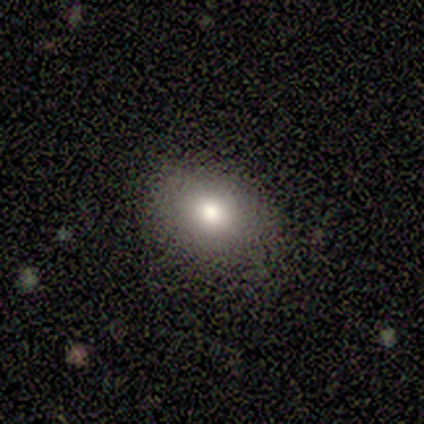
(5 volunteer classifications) Volunteers were most divided on "smooth or featured": smooth: 80%, featured or disk: 20%, star or artifact: 0%. More confident: how rounded — in between (100%); merging — none (80%).